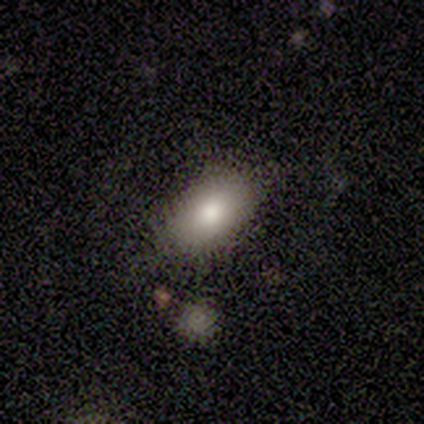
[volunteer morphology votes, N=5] This is clearly a smooth galaxy (100%). How rounded: clearly in between (100%). Merging: likely none (60%).